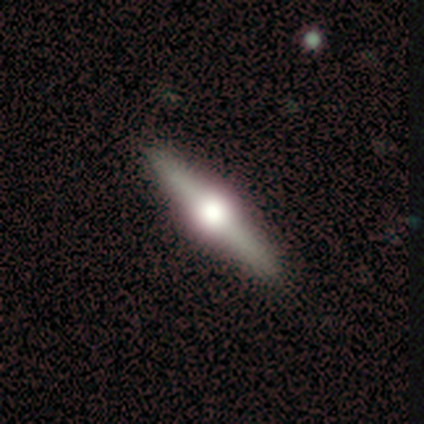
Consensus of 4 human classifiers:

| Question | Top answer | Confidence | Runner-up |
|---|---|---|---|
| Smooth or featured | featured or disk | 100% | — |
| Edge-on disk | yes | 100% | — |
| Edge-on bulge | rounded | 100% | — |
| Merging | none | 75% | major disturbance (25%) |